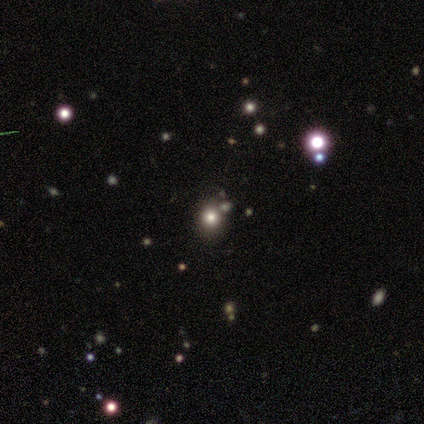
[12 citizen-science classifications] This appears to be a smooth galaxy with no disk features (58%) that is round (71%). Merging: none (75%).